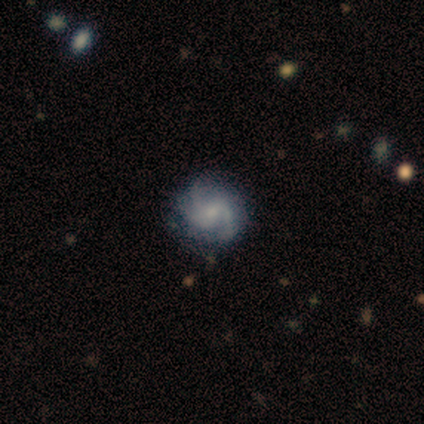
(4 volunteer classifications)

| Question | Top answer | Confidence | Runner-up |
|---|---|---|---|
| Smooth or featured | featured or disk | 100% | — |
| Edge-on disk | no | 100% | — |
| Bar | weak | 100% | — |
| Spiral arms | yes | 100% | — |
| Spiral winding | medium | 50% | tight (25%) |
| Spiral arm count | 2 | 50% | 3 (25%) |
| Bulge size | small | 100% | — |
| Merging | none | 75% | minor disturbance (25%) |